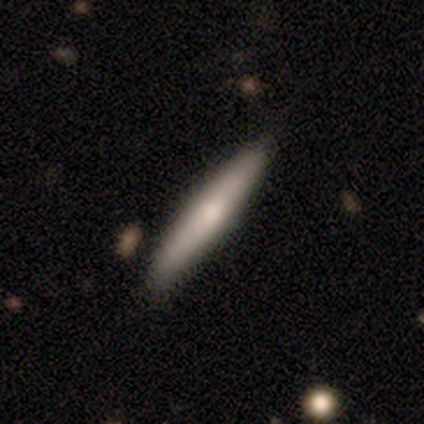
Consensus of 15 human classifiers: Smooth or featured: featured or disk — 60% (smooth — 27%)
Edge-on disk: yes — 100%
Edge-on bulge: rounded — 89% (none — 11%)
Merging: none — 77% (minor disturbance — 15%)